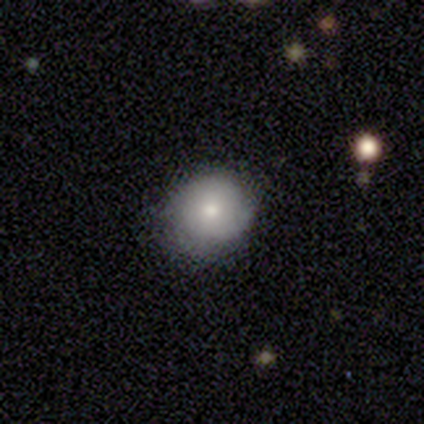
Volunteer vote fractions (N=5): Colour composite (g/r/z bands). It shows a smooth galaxy with no disk features (100%) that is round (60%). Merging: none (80%).